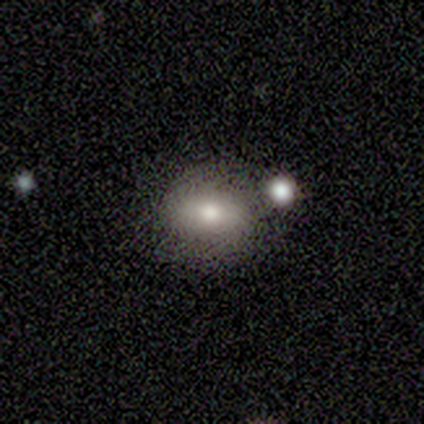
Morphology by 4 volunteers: Smooth or featured: smooth — 50% (featured or disk — 25%)
How rounded: round — 50% (tied with in between — 50%)
Merging: none — 33% (tied with minor disturbance — 33%; merger — 33%)